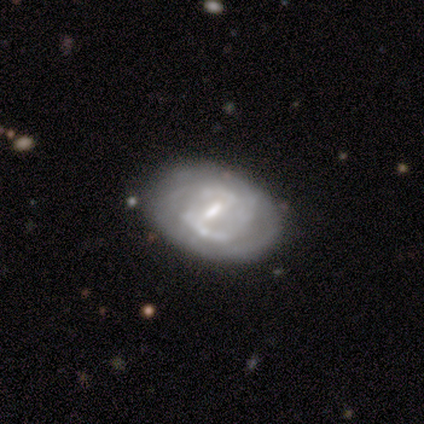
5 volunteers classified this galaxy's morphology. Volunteers were most divided on "spiral arms" (2-way tie): yes: 50%, no: 50%; "spiral winding" (2-way tie): tight: 50%, loose: 50%, medium: 0%; "bulge size" (2-way tie): moderate: 50%, small: 50%, dominant: 0%, large: 0%, none: 0%. More confident: edge-on disk — no (100%); spiral arm count — 2 (100%); merging — none (100%); smooth or featured — featured or disk (80%); bar — weak (75%).